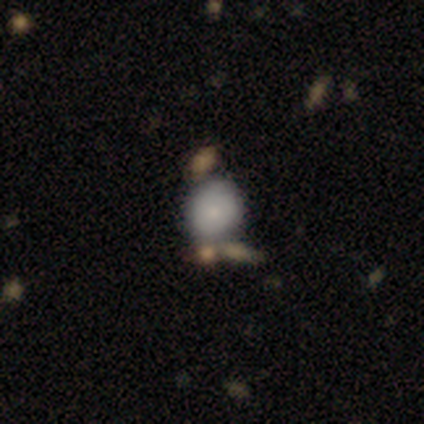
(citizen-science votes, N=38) smooth_or_featured: smooth (p=0.79) [alt: featured or disk p=0.11]
how_rounded: round (p=0.73) [alt: in between p=0.27]
merging: none (p=0.65) [alt: merger p=0.21]